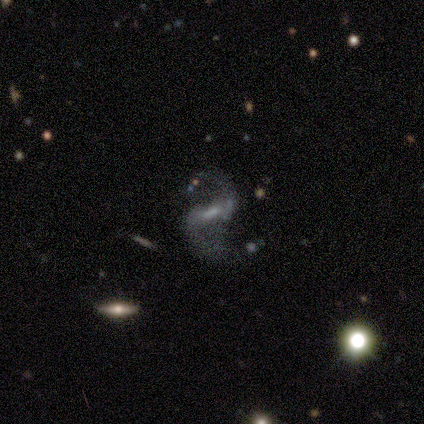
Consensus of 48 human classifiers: This appears to be a featured or disk galaxy (92%) with a strong bar (61%), 2 (100%) loose (75%) spiral arms (98%) and a small central bulge (41%). Merging: none (60%).